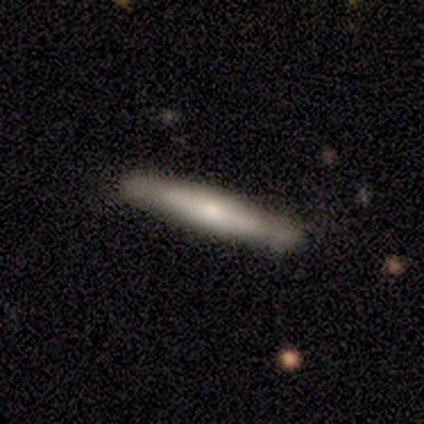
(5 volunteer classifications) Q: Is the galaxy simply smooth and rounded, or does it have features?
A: featured or disk — 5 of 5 (100%).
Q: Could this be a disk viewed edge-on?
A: yes — 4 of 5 (80%).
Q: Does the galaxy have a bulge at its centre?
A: boxy — 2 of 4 (50%, tied with rounded).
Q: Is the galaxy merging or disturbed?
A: none — 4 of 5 (80%).